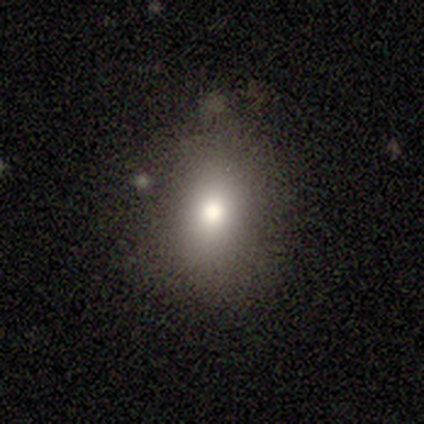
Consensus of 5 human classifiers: This is clearly a smooth galaxy (80%). How rounded: clearly in between (100%). Merging: likely minor disturbance (75%).